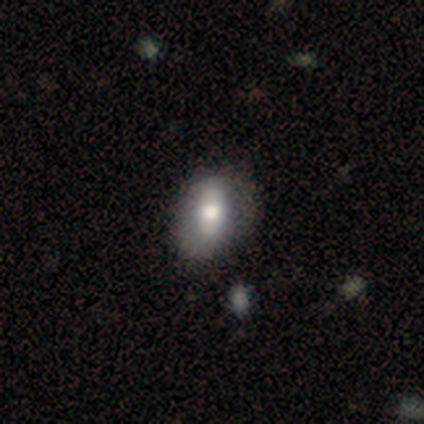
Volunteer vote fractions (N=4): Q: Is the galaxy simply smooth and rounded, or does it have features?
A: smooth — 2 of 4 (50%).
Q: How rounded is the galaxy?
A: in between — 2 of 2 (100%).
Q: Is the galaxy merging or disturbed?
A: none — 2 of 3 (67%).